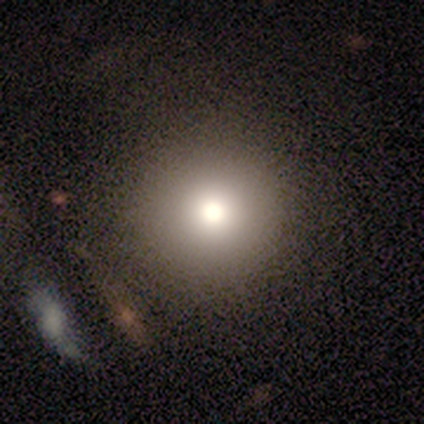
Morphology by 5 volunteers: Overall: smooth (40%, tied with featured or disk). How rounded: round (100%). Merging: none (75%).